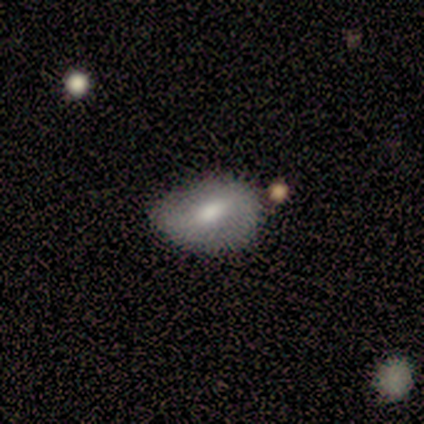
This appears to be a smooth galaxy with no disk features (100%) that is in between round and cigar-shaped (88%). Merging: merger (38%).